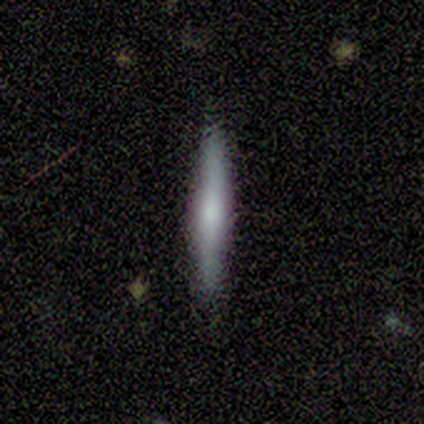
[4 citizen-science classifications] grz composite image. It shows a smooth galaxy with no disk features (75%) that is cigar-shaped (100%). Merging: none (50%).